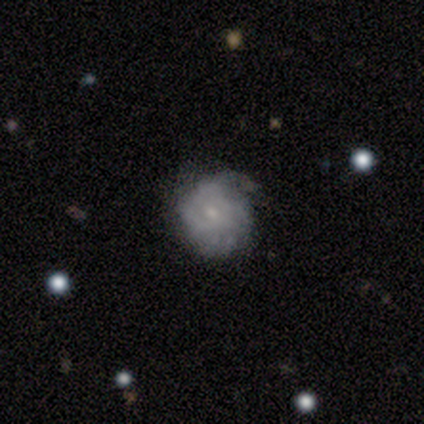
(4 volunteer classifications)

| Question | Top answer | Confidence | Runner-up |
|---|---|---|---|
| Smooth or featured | featured or disk | 100% | — |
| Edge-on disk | no | 100% | — |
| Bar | no | 75% | weak (25%) |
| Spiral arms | yes | 75% | no (25%) |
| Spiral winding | tight | 100% | — |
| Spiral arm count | can't tell | 100% | — |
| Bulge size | small | 75% | moderate (25%) |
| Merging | none | 50% | tied: minor disturbance (50%) |